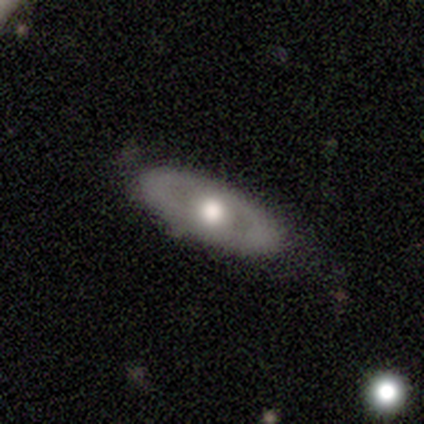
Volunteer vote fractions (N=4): Overall: featured or disk (75%). Edge-on disk: no (100%). Bar: no (100%). Spiral arms: no (67%; yes 33%). Bulge size: moderate (67%; large 33%). Merging: none (75%).